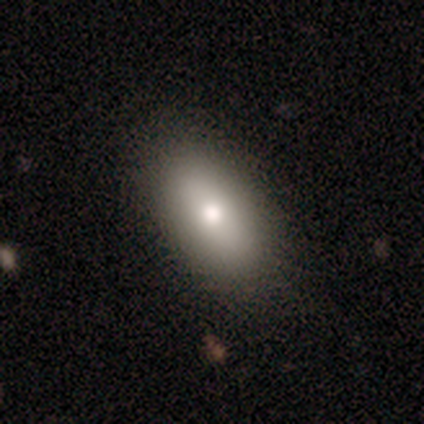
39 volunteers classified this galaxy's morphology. Smooth or featured? smooth (82%)
How rounded? in between (97%)
Merging? none (82%)